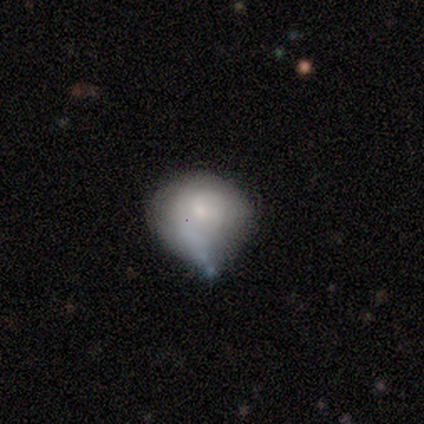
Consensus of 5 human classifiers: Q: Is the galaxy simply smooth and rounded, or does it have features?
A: smooth — 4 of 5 (80%).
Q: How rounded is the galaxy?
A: round — 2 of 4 (50%, tied with in between).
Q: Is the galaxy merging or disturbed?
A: minor disturbance — 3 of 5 (60%).